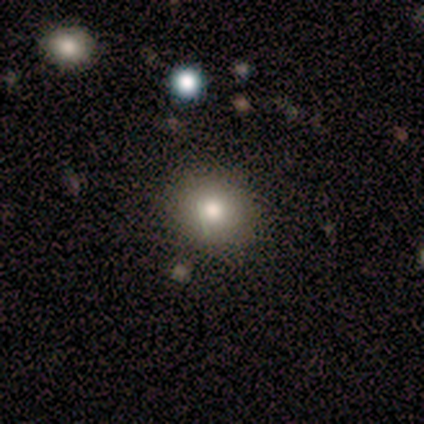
Smooth or featured?
  - smooth: 60% *
  - star or artifact: 40%
  - featured or disk: 0%
How rounded?
  - round: 100% *
  - in between: 0%
  - cigar-shaped: 0%
Merging?
  - none: 100% *
  - minor disturbance: 0%
  - major disturbance: 0%
  - merger: 0%